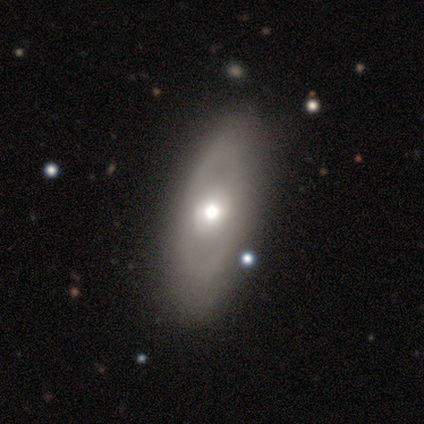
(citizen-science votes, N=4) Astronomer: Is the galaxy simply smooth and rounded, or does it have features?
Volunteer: featured or disk — 75%.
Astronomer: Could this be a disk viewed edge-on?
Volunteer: yes — 67%.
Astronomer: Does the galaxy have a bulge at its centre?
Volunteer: rounded — 100%.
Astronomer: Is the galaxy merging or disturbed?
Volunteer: minor disturbance — 67%.